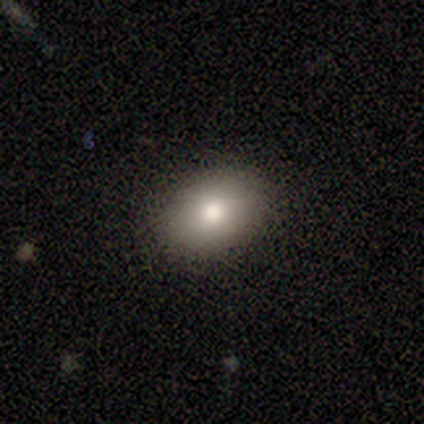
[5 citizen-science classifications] Q: Smooth or featured?
A: smooth (80%); runner-up: star or artifact (20%)
Q: How rounded?
A: in between (100%)
Q: Merging?
A: none (75%); runner-up: minor disturbance (25%)